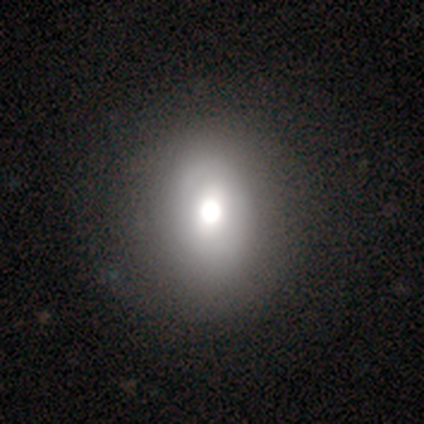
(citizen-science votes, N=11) smooth 64%, featured or disk 36%, star or artifact 0%. Down the decision tree: how rounded — round (57%); merging — none (64%).